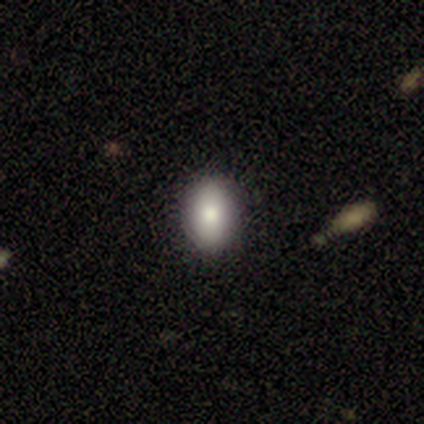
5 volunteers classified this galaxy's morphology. type=smooth (60%); roundness=in between (100%); merging=none (75%).